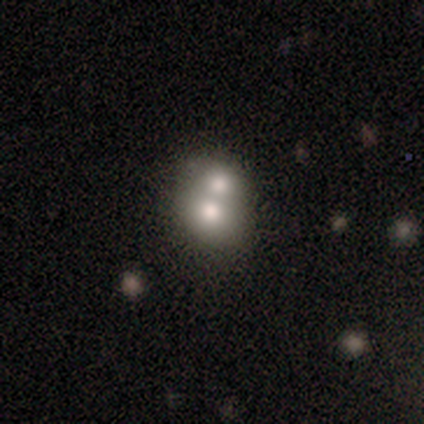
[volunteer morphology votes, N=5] Smooth or featured? 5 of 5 (100%) said smooth. How rounded? 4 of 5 (80%) said round. Merging? 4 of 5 (80%) said merger.